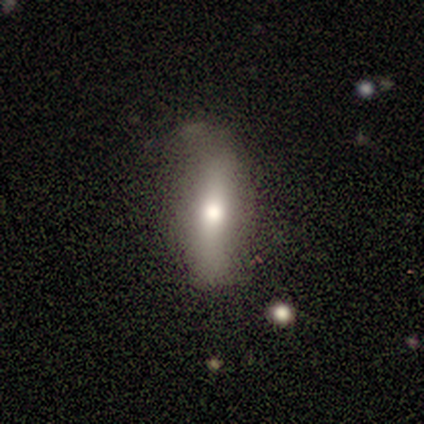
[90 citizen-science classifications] Q: Smooth or featured?
A: smooth (61%); runner-up: featured or disk (37%)
Q: How rounded?
A: cigar-shaped (56%); runner-up: in between (42%)
Q: Merging?
A: none (83%); runner-up: minor disturbance (12%)